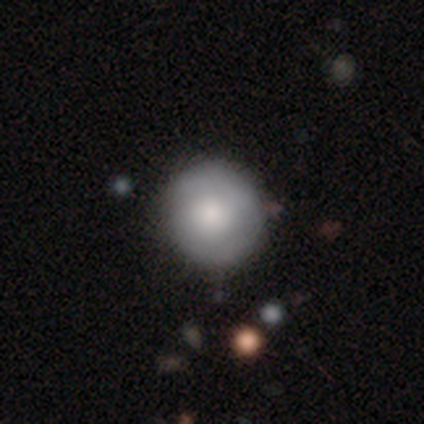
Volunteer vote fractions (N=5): smooth_or_featured: smooth (p=0.60) [alt: featured or disk p=0.40]
how_rounded: round (p=1.00)
merging: none (p=0.60) [alt: minor disturbance p=0.40]